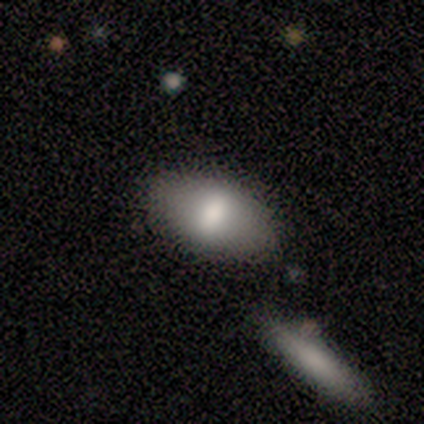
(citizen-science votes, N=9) Overall: smooth (89%). How rounded: in between (100%). Merging: none (56%; minor disturbance 44%).